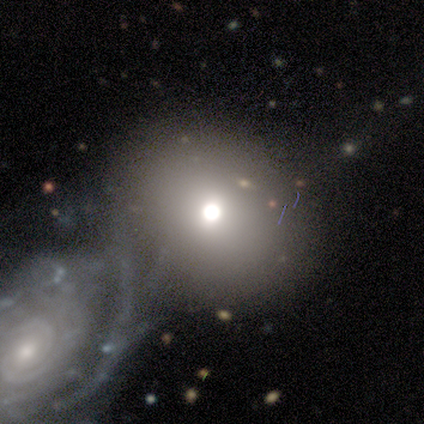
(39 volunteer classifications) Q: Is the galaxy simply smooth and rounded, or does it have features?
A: smooth — 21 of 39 (54%).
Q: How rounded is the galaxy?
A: round — 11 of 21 (52%).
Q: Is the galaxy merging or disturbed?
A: merger — 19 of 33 (58%).